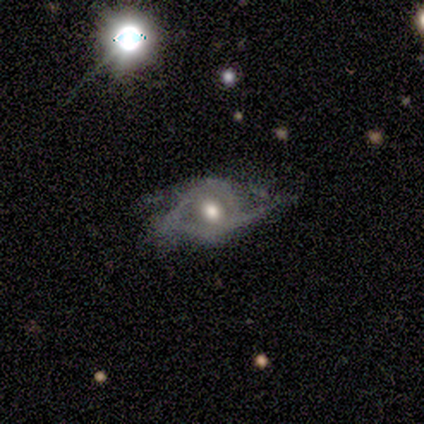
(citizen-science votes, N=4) Overall: featured or disk (100%). Edge-on disk: no (100%). Bar: no (75%). Spiral arms: yes (50%, tied with no). Spiral arm count: 2 (50%, tied with can't tell). Spiral winding: medium (50%, tied with loose). Bulge size: moderate (100%). Merging: major disturbance (50%; none 25%).